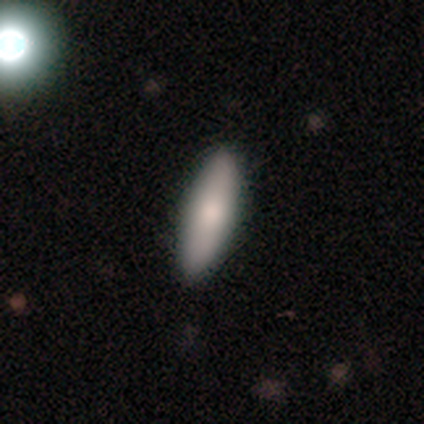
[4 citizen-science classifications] Overall: smooth (100%). How rounded: in between (50%, tied with cigar-shaped). Merging: none (100%).